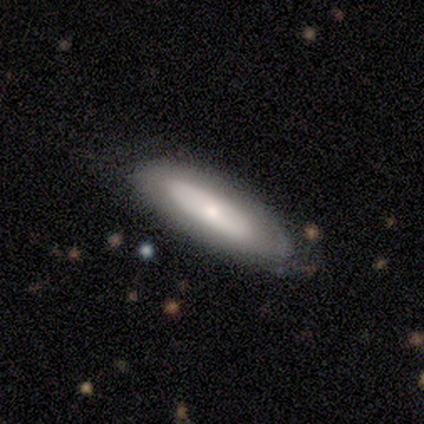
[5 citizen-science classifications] A smooth galaxy with no disk features (40%, tied with featured or disk) that is in between round and cigar-shaped (50%, tied with cigar-shaped).

Vote fractions:
- Smooth or featured? smooth: 40% (tied) / featured or disk: 40% (tied) / star or artifact: 20%
- How rounded? in between: 50% (tied) / cigar-shaped: 50% (tied) / round: 0%
- Merging? none: 75% / major disturbance: 25% / minor disturbance: 0% / merger: 0%